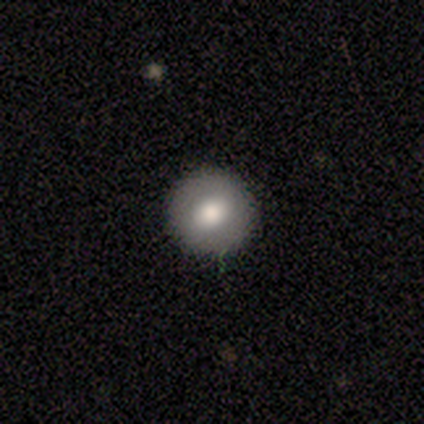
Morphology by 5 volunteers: Q: Smooth or featured?
A: smooth (80%); runner-up: featured or disk (20%)
Q: How rounded?
A: round (100%)
Q: Merging?
A: none (100%)